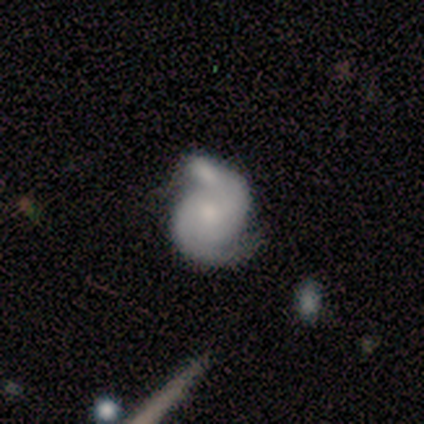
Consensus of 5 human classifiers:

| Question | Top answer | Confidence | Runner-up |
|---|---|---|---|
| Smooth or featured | featured or disk | 80% | smooth (20%) |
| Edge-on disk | no | 100% | — |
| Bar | no | 100% | — |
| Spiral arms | yes | 100% | — |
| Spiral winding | medium | 50% | tight (25%) |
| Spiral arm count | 2 | 100% | — |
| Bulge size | moderate | 50% | tied: small (50%) |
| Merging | none | 80% | minor disturbance (20%) |